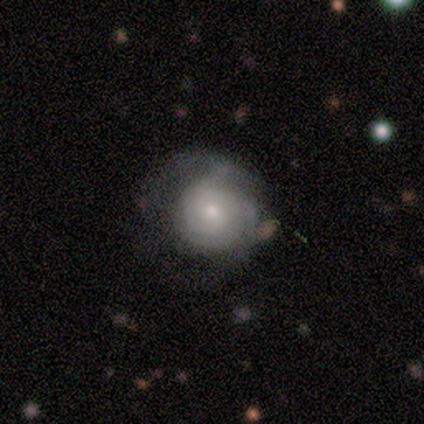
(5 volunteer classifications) smooth-or-featured: featured or disk: 60% | smooth: 40% | star or artifact: 0%
  disk-edge-on: no: 100% | yes: 0%
    bar: no: 100% | strong: 0% | weak: 0%
    has-spiral-arms: no: 67% | yes: 33%
    bulge-size: small: 100% | dominant: 0% | large: 0% | moderate: 0% | none: 0%
  merging: none: 40% (tied) | minor disturbance: 40% (tied) | major disturbance: 20% | merger: 0%